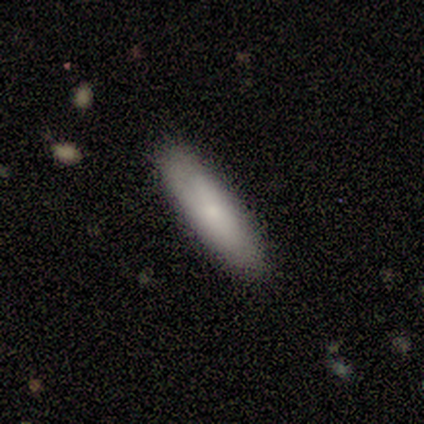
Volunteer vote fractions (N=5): A smooth galaxy with no disk features (100%) that is cigar-shaped (80%).

Vote fractions:
- Smooth or featured? smooth: 100% / featured or disk: 0% / star or artifact: 0%
- How rounded? cigar-shaped: 80% / in between: 20% / round: 0%
- Merging? none: 100% / minor disturbance: 0% / major disturbance: 0% / merger: 0%